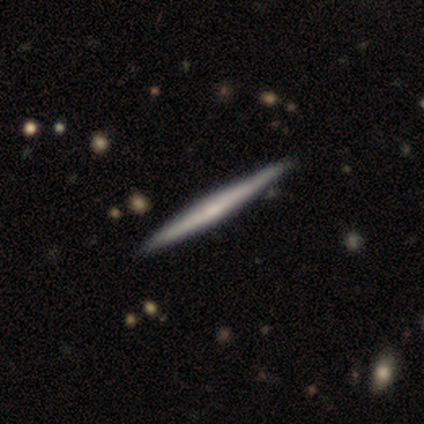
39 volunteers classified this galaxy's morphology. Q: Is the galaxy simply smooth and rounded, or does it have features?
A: featured or disk — 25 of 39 (64%).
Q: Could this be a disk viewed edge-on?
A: yes — 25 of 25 (100%).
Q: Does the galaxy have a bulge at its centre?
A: none — 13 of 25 (52%).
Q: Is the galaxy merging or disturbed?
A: none — 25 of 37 (68%).